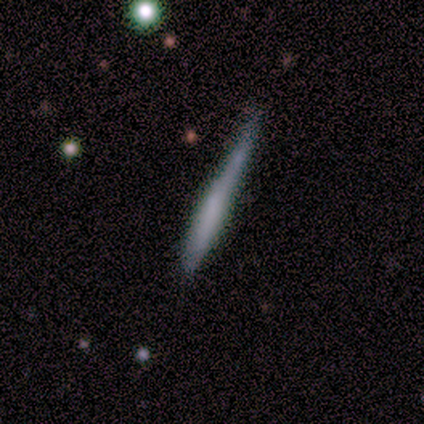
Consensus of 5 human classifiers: Smooth or featured? 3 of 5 (60%) said smooth. How rounded? 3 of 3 (100%) said cigar-shaped. Merging? 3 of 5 (60%) said none.